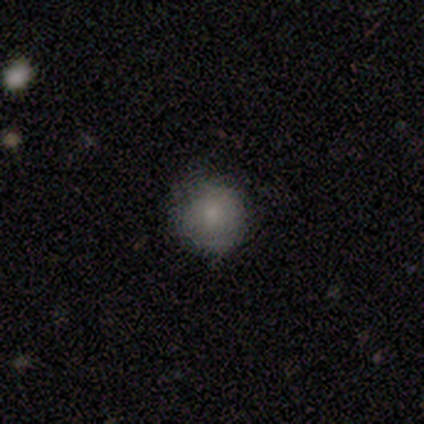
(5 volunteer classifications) This appears to be a smooth galaxy with no disk features (100%) that is round (100%). Merging: none (100%).